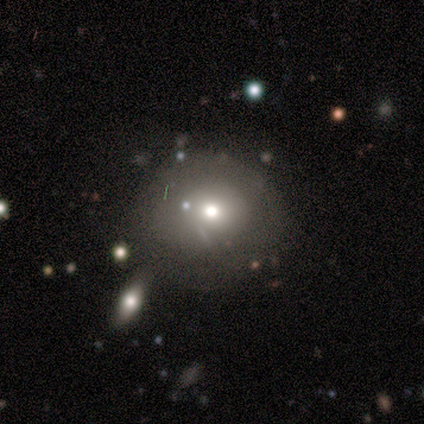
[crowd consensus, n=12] A smooth galaxy with no disk features (67%) that is round (100%).

Vote fractions:
- Smooth or featured? smooth: 67% / featured or disk: 25% / star or artifact: 8%
- How rounded? round: 100% / in between: 0% / cigar-shaped: 0%
- Merging? none: 55% / minor disturbance: 27% / major disturbance: 9% / merger: 9%